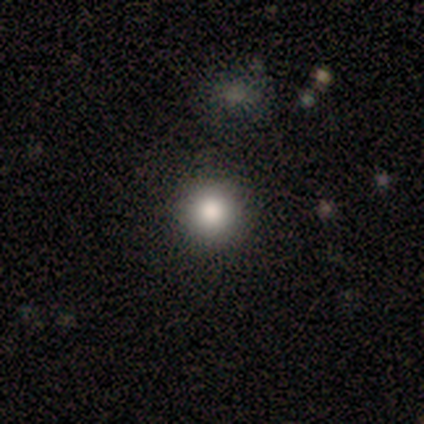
Smooth or featured? smooth (100%)
How rounded? round (100%)
Merging? none (100%)